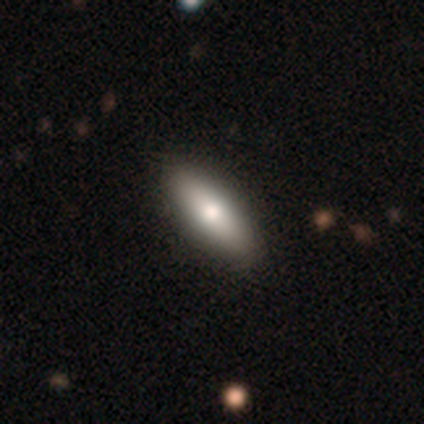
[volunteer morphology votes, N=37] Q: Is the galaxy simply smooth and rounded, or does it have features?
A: smooth — 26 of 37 (70%).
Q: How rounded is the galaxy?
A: in between — 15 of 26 (58%).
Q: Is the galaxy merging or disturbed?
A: none — 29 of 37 (78%).